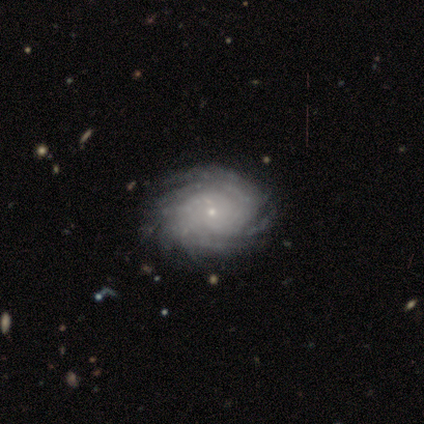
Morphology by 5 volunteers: This is clearly a featured or disk galaxy (100%). It is clearly not viewed edge-on (100%). Bar: likely no (60%). Spiral arm pattern: clearly yes (100%). Spiral arm count: clearly more than 4 (80%). Spiral winding: likely tight (60%). Central bulge: clearly small (100%). Merging: clearly none (100%).